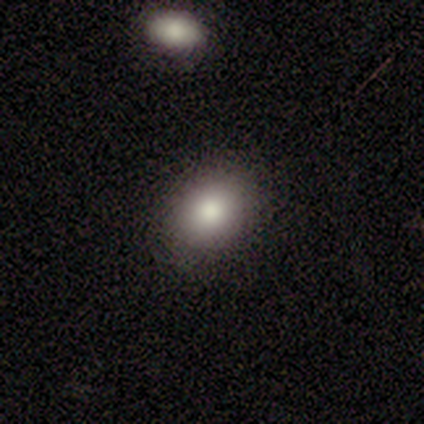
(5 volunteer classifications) Smooth or featured: smooth — 80% (featured or disk — 20%)
How rounded: round — 50% (tied with in between — 50%)
Merging: none — 80% (minor disturbance — 20%)